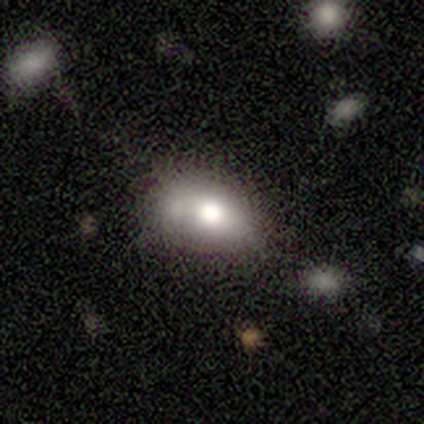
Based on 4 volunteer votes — smooth 100%, featured or disk 0%, star or artifact 0%. Down the decision tree: how rounded — in between (100%); merging — none (50%).